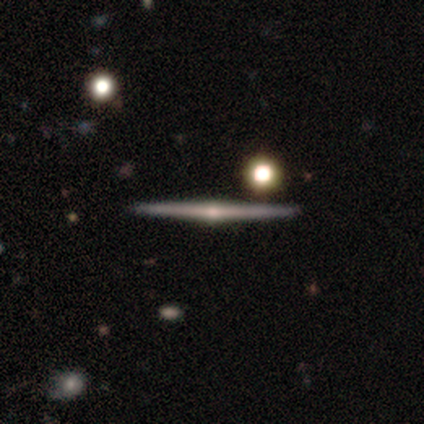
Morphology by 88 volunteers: Smooth or featured? featured or disk (81%)
Edge-on disk? yes (99%)
Edge-on bulge? rounded (84%)
Merging? none (95%)